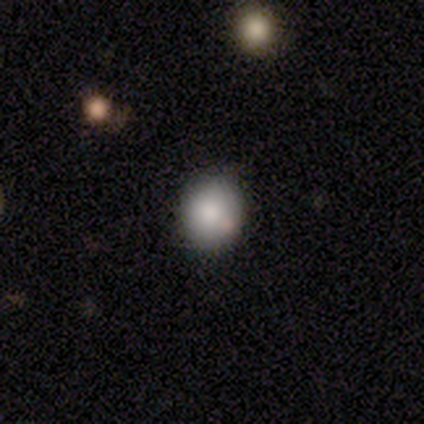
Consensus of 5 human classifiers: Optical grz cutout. It shows a smooth galaxy with no disk features (80%) that is round (100%). Merging: none (75%).